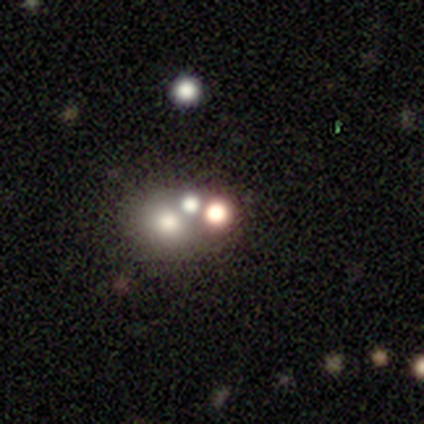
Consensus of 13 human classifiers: smooth-or-featured: smooth: 46% | star or artifact: 31% | featured or disk: 23%
  how-rounded: round: 67% | in between: 33% | cigar-shaped: 0%
  merging: none: 78% | merger: 22% | minor disturbance: 0% | major disturbance: 0%